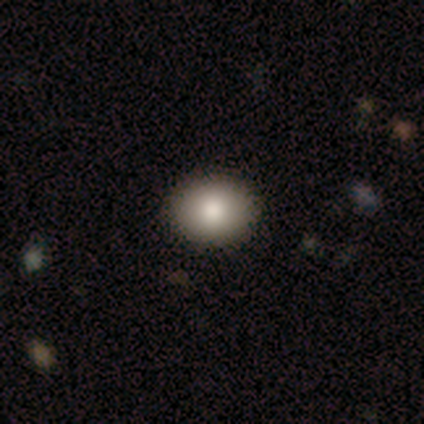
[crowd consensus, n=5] A smooth galaxy with no disk features (100%) that is round (80%). Merging: none (80%).